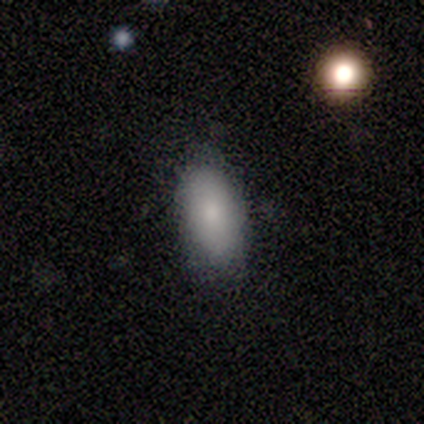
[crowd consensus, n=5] Smooth or featured? smooth (100%)
How rounded? in between (100%)
Merging? none (60%)